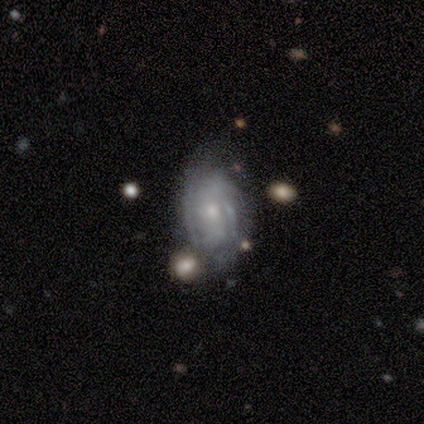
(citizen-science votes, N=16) Smooth or featured? 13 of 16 (81%) said featured or disk. Edge-on disk? 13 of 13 (100%) said no. Bar? 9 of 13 (69%) said no. Spiral arms? 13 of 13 (100%) said yes. Spiral winding? 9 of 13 (69%) said tight. Spiral arm count? 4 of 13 (31%) said 2. Bulge size? 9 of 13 (69%) said small. Merging? 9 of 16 (56%) said none.